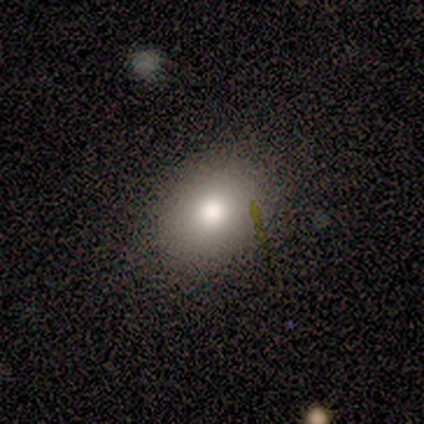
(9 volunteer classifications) Q: Smooth or featured?
A: smooth (100%)
Q: How rounded?
A: in between (78%); runner-up: round (22%)
Q: Merging?
A: none (100%)